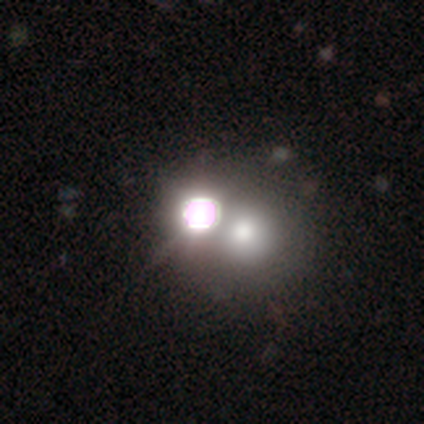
smooth-or-featured: star or artifact: 53% | smooth: 42% | featured or disk: 6%